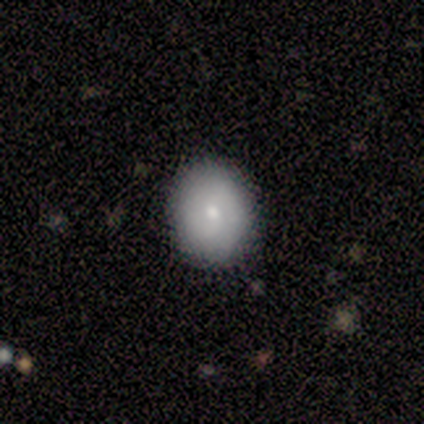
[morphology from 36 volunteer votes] Overall: smooth (78%). How rounded: round (71%). Merging: none (89%).